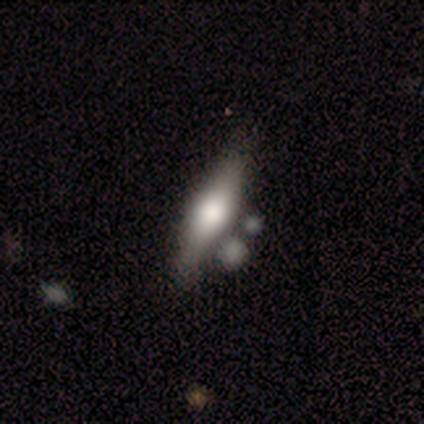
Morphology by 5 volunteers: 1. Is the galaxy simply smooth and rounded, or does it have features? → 80% smooth, 20% featured or disk, 0% star or artifact.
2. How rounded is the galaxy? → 75% in between, 25% cigar-shaped, 0% round.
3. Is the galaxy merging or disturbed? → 60% none, 20% minor disturbance, 20% merger, 0% major disturbance.